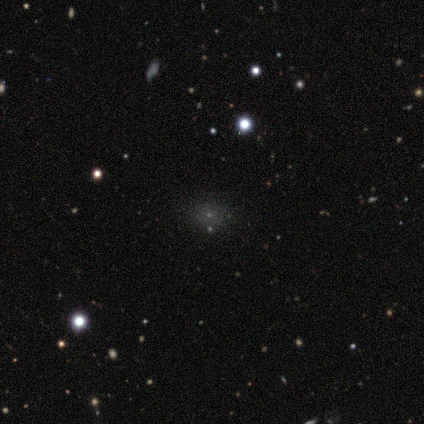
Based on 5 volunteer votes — Smooth or featured? 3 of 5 (60%) said smooth. How rounded? 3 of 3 (100%) said round. Merging? 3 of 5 (60%) said none.